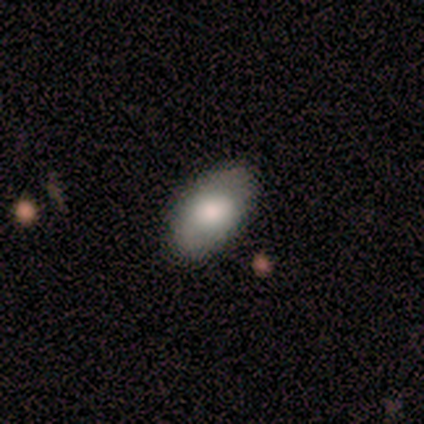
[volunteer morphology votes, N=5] This appears to be a smooth galaxy with no disk features (100%) that is in between round and cigar-shaped (100%). Merging: minor disturbance (60%).